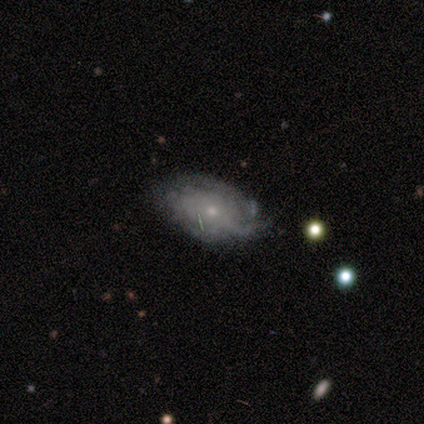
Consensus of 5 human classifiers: Smooth or featured: featured or disk — 60% (smooth — 40%)
Edge-on disk: no — 100%
Bar: no — 100%
Spiral arms: yes — 67% (no — 33%)
Spiral winding: tight — 100%
Spiral arm count: can't tell — 100%
Bulge size: small — 100%
Merging: none — 60% (minor disturbance — 20%)